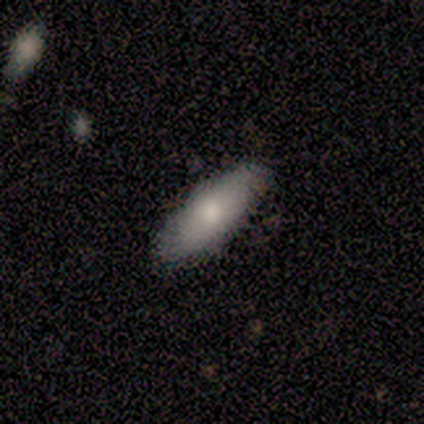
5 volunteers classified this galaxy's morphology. Volunteers were most divided on "smooth or featured": smooth: 60%, featured or disk: 40%, star or artifact: 0%. More confident: merging — none (100%); how rounded — in between (67%).